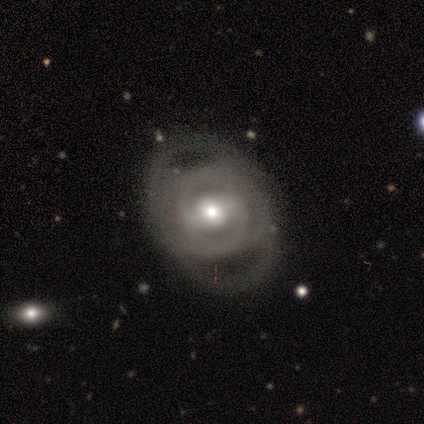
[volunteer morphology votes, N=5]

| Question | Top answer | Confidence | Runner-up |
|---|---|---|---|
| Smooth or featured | featured or disk | 80% | smooth (20%) |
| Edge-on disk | no | 100% | — |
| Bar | strong | 75% | weak (25%) |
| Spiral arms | yes | 100% | — |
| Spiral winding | tight | 50% | tied: medium (50%) |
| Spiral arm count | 2 | 100% | — |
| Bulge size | moderate | 50% | tied: small (50%) |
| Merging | none | 40% | tied: major disturbance (40%) |